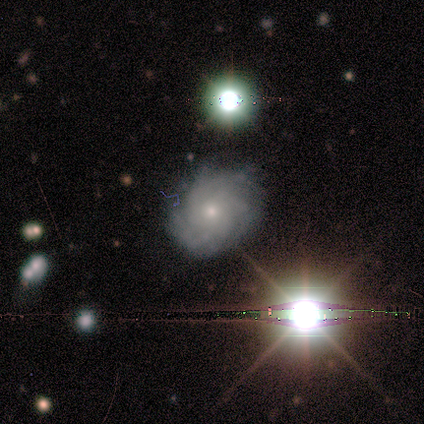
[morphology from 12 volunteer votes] Volunteers were most divided on "bulge size": moderate: 57%, small: 43%, dominant: 0%, large: 0%, none: 0%. More confident: bar — no (86%); spiral arms — yes (86%); edge-on disk — no (78%); smooth or featured — featured or disk (75%); merging — none (70%); spiral winding — medium (67%); spiral arm count — more than 4 (50%).